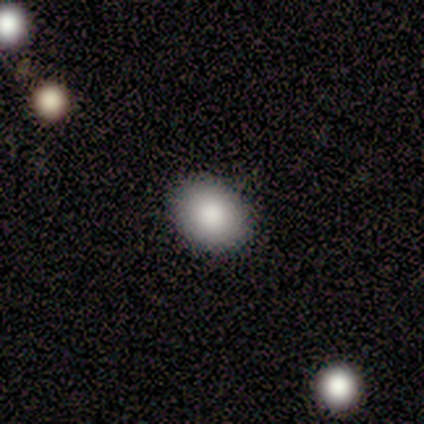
Volunteers were most divided on "smooth or featured": smooth: 67%, star or artifact: 33%, featured or disk: 0%. More confident: merging — none (100%); how rounded — in between (67%).